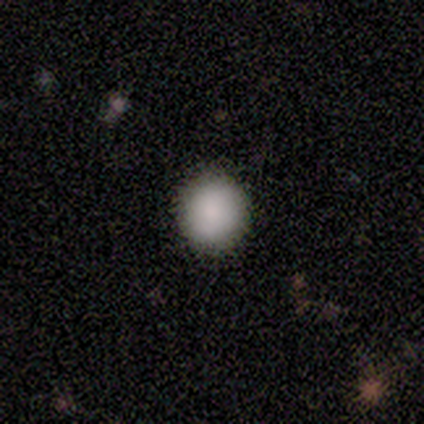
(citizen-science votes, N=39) smooth 95%, featured or disk 5%, star or artifact 0%. Down the decision tree: how rounded — round (92%); merging — none (92%).